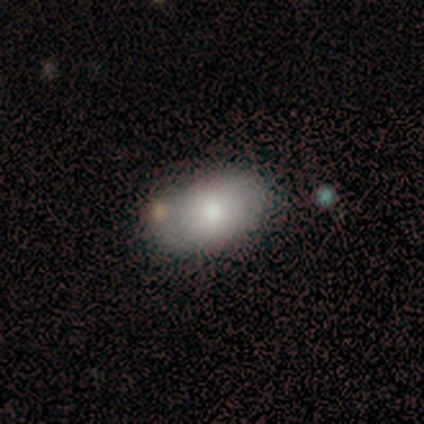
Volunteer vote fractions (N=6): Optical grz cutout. It shows a smooth galaxy with no disk features (83%) that is in between round and cigar-shaped (100%). Merging: none (67%).